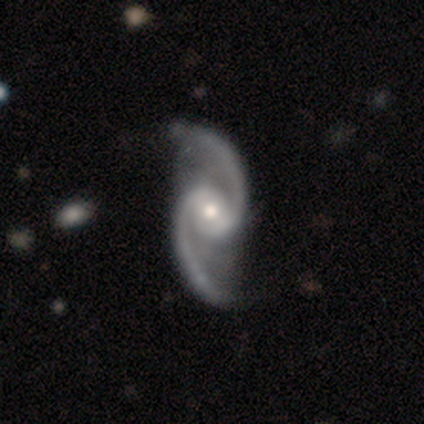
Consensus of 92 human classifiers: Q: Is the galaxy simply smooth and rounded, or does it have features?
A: featured or disk — 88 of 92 (96%).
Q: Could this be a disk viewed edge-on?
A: no — 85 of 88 (97%).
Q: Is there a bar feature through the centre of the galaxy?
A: weak — 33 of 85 (39%, tied with no).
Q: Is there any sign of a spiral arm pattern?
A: yes — 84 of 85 (99%).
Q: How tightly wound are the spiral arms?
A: loose — 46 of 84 (55%).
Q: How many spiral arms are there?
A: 2 — 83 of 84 (99%).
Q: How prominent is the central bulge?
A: moderate — 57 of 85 (67%).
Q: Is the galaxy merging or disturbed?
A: none — 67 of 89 (75%).